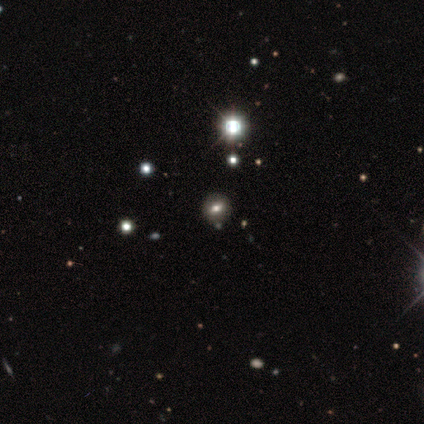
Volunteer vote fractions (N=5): This appears to be a smooth galaxy with no disk features (60%) that is round (67%). Merging: none (100%).